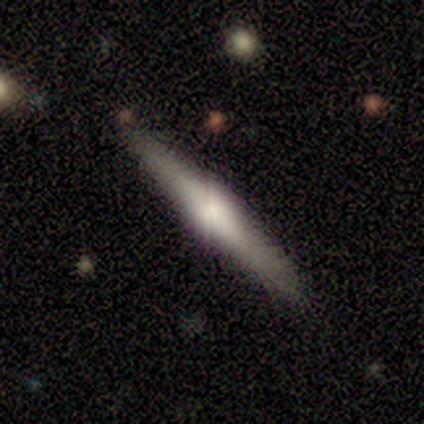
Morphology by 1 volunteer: Overall: smooth (100%). How rounded: cigar-shaped (100%). Merging: none (100%).